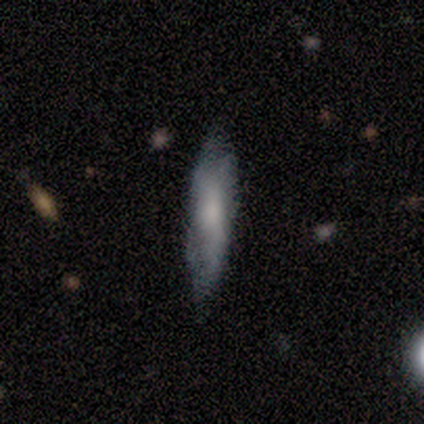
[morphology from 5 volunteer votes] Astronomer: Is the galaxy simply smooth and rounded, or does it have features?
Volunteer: featured or disk — 60% (runner-up: smooth, 40%).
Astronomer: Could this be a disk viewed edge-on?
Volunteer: no — 67%.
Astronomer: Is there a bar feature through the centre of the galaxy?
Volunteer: weak — 50%, tied with no at 50%.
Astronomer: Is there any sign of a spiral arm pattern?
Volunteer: yes — 100%.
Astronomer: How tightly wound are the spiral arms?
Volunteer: medium — 50%, tied with loose at 50%.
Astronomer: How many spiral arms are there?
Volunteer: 2 — 50%, tied with can't tell at 50%.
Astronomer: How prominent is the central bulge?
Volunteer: moderate — 50%, tied with small at 50%.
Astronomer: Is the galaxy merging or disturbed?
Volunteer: none — 80%.